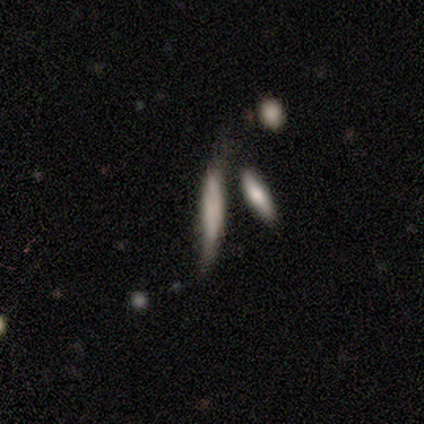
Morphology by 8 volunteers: Overall: smooth (75%). How rounded: cigar-shaped (100%). Merging: minor disturbance (38%; none 25%).